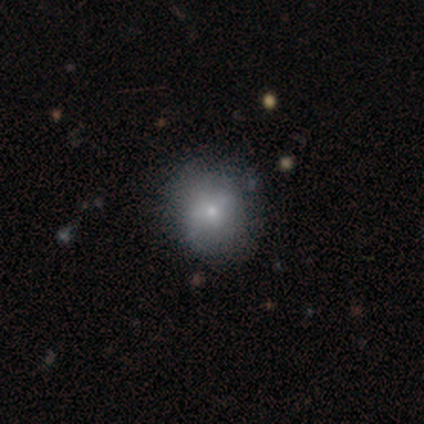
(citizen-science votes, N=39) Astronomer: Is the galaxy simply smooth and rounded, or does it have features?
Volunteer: smooth — 59% (runner-up: featured or disk, 38%).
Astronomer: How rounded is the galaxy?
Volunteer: round — 91%.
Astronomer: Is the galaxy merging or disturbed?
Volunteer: none — 76%.